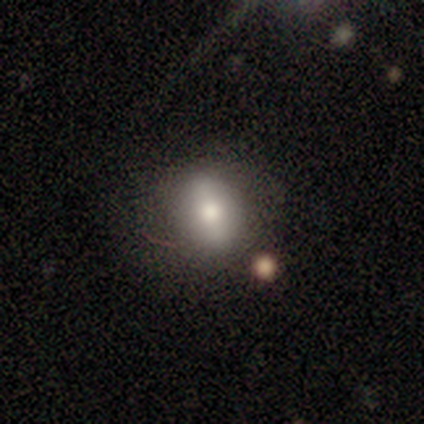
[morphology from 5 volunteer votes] type=smooth (80%); roundness=round (50%, tied with in between); merging=none (75%).